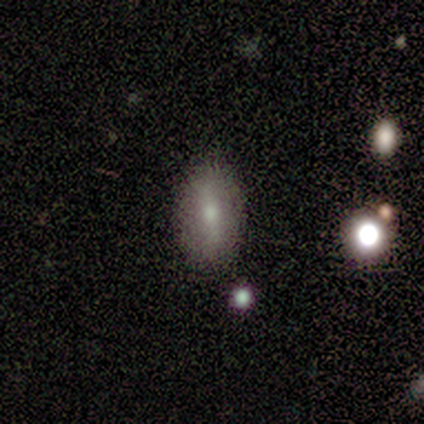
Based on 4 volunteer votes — smooth 75%, featured or disk 25%, star or artifact 0%. Down the decision tree: how rounded — in between (100%); merging — none (100%).